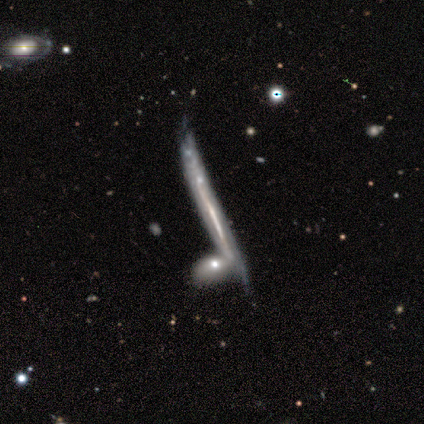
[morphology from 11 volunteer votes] Q: Smooth or featured?
A: featured or disk (82%); runner-up: smooth (18%)
Q: Edge-on disk?
A: yes (89%); runner-up: no (11%)
Q: Edge-on bulge?
A: none (100%)
Q: Merging?
A: none (64%); runner-up: merger (18%)